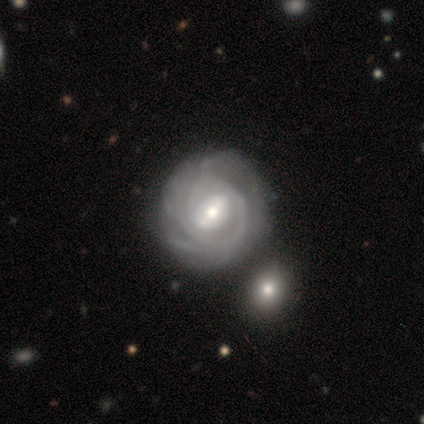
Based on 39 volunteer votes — smooth_or_featured: featured or disk (p=0.90) [alt: smooth p=0.10]
disk_edge_on: no (p=0.97) [alt: yes p=0.03]
bar: weak (p=0.47) [alt: strong p=0.41]
has_spiral_arms: yes (p=0.97) [alt: no p=0.03]
spiral_winding: tight (p=0.79) [alt: medium p=0.18]
spiral_arm_count: can't tell (p=0.39) [alt: 2 p=0.33]
bulge_size: moderate (p=0.59) [alt: small p=0.35]
merging: none (p=0.49) [alt: minor disturbance p=0.13]